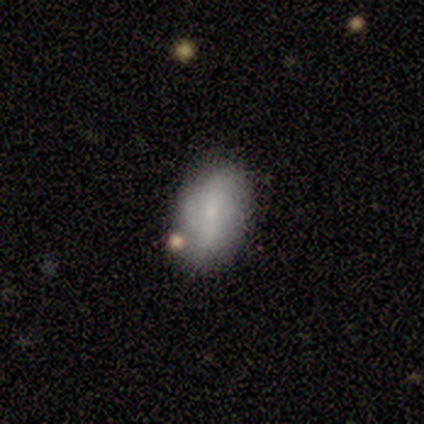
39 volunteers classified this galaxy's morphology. Smooth or featured? smooth (49%)
How rounded? in between (95%)
Merging? none (84%)